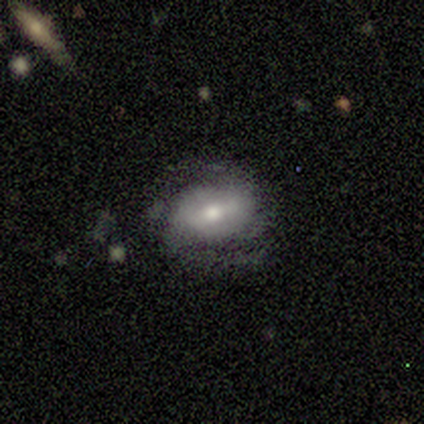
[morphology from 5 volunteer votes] This appears to be a featured or disk galaxy (60%) with no bar (67%), 2 (67%) medium (67%) spiral arms (100%) and a moderate central bulge (67%). Merging: none (75%).